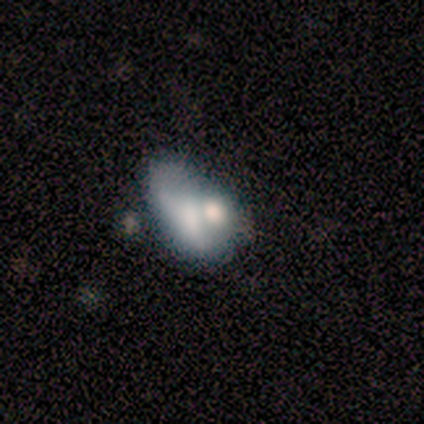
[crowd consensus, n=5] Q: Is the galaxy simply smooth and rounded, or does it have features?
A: featured or disk — 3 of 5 (60%).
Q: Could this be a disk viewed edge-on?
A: no — 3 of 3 (100%).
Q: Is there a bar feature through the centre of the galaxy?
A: no — 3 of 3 (100%).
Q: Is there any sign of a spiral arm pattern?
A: no — 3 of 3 (100%).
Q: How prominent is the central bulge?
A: moderate — 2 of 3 (67%).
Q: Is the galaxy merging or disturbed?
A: major disturbance — 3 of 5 (60%).